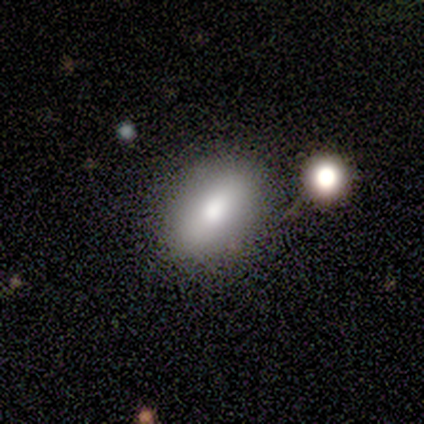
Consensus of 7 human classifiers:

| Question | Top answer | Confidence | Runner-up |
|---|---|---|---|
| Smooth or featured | smooth | 86% | featured or disk (14%) |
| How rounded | in between | 83% | round (17%) |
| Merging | none | 71% | major disturbance (14%) |